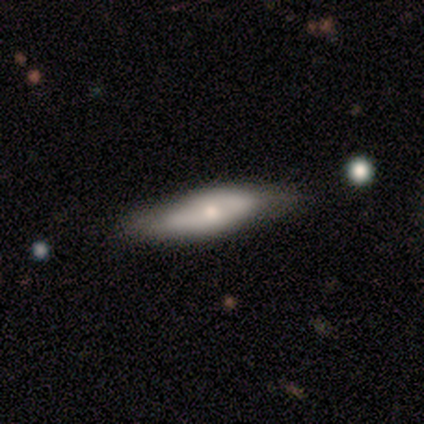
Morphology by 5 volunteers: A featured or disk galaxy (60%) viewed edge-on (100%) with a rounded central bulge (100%).

Vote fractions:
- Smooth or featured? featured or disk: 60% / smooth: 40% / star or artifact: 0%
- Edge-on disk? yes: 100% / no: 0%
- Edge-on bulge? rounded: 100% / boxy: 0% / none: 0%
- Merging? none: 100% / minor disturbance: 0% / major disturbance: 0% / merger: 0%